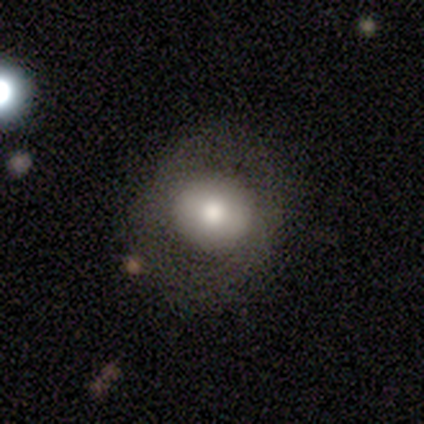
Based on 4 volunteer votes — Smooth or featured? 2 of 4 (50%) said featured or disk. Edge-on disk? 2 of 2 (100%) said no. Bar? 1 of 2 (50%, tied with no) said strong. Spiral arms? 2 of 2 (100%) said no. Bulge size? 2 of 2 (100%) said large. Merging? 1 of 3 (33%, tied with major disturbance and merger) said none.